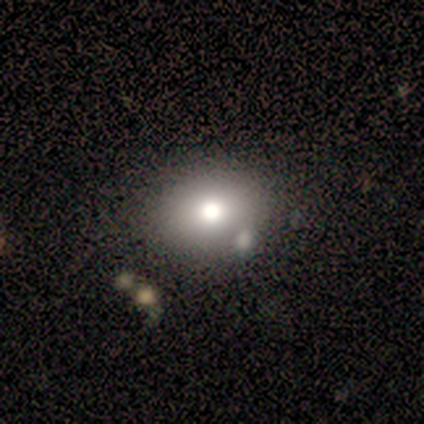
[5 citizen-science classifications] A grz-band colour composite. It shows a smooth galaxy with no disk features (100%) that is round (60%). Merging: none (80%).